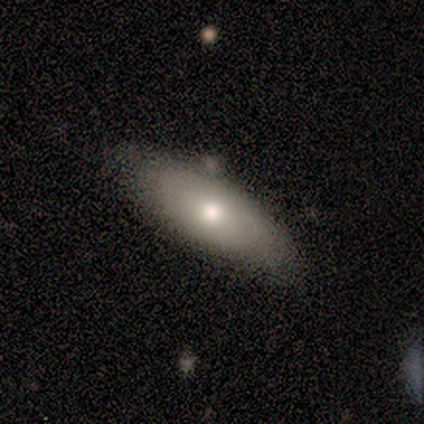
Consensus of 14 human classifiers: This appears to be a smooth galaxy with no disk features (64%) that is in between round and cigar-shaped (78%). Merging: none (69%).